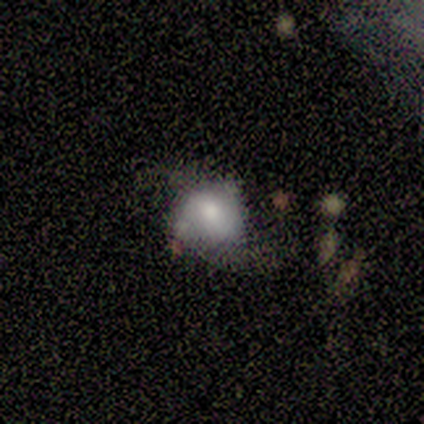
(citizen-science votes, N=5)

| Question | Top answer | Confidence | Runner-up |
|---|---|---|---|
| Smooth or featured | smooth | 60% | featured or disk (40%) |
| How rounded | round | 67% | in between (33%) |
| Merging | none | 60% | major disturbance (40%) |